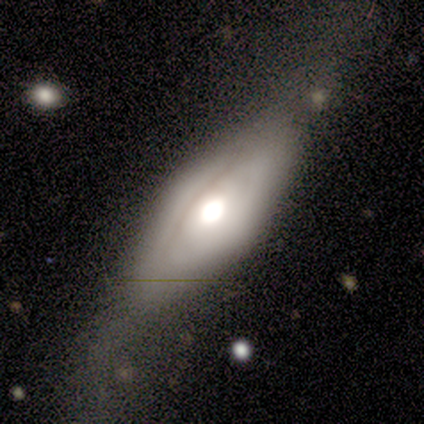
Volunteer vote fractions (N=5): A smooth galaxy with no disk features (60%) that is in between round and cigar-shaped (67%).

Vote fractions:
- Smooth or featured? smooth: 60% / featured or disk: 40% / star or artifact: 0%
- How rounded? in between: 67% / cigar-shaped: 33% / round: 0%
- Merging? major disturbance: 60% / none: 20% / minor disturbance: 20% / merger: 0%